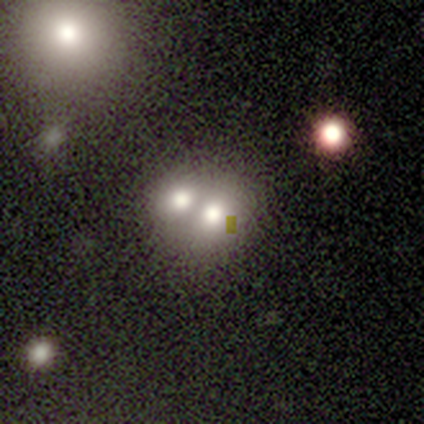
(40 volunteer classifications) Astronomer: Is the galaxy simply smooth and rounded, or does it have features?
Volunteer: smooth — 62%.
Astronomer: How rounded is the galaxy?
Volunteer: round — 64%.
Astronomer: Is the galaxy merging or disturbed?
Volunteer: merger — 83%.